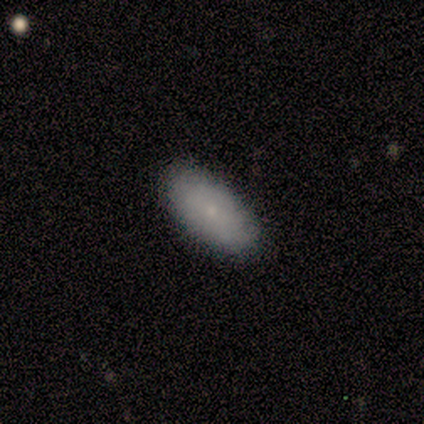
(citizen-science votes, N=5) A smooth galaxy with no disk features (60%) that is in between round and cigar-shaped (100%).

Vote fractions:
- Smooth or featured? smooth: 60% / featured or disk: 40% / star or artifact: 0%
- How rounded? in between: 100% / round: 0% / cigar-shaped: 0%
- Merging? none: 100% / minor disturbance: 0% / major disturbance: 0% / merger: 0%